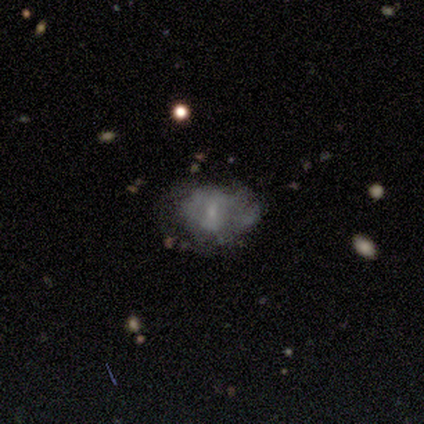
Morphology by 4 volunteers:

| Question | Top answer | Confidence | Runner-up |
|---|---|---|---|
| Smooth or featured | smooth | 50% | tied: featured or disk (50%) |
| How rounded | round | 50% | tied: in between (50%) |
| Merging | minor disturbance | 50% | none (25%) |